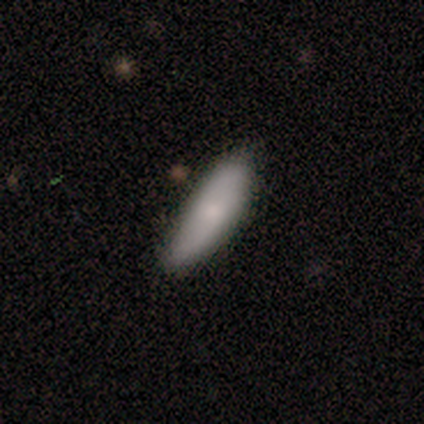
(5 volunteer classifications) Smooth or featured? smooth (80%)
How rounded? in between (75%)
Merging? minor disturbance (75%)